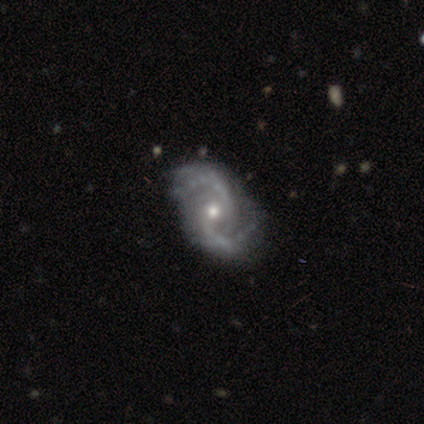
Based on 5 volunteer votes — featured or disk 100%, smooth 0%, star or artifact 0%. Down the decision tree: edge-on disk — no (100%); bar — no (60%); spiral arms — yes (100%); spiral arm count — 2 (100%); spiral winding — medium (60%); bulge size — moderate (40%, tied with small); merging — none (60%).